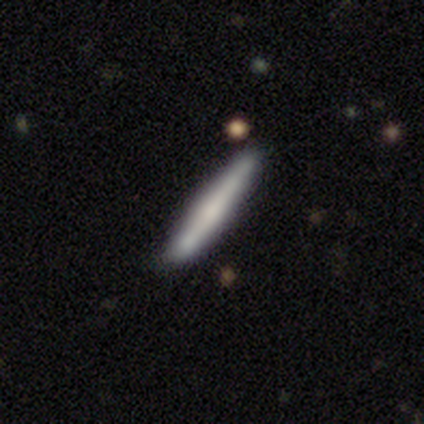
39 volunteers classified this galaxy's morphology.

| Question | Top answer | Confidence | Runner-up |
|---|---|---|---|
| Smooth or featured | smooth | 62% | featured or disk (33%) |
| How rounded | cigar-shaped | 96% | in between (4%) |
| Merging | none | 78% | minor disturbance (19%) |